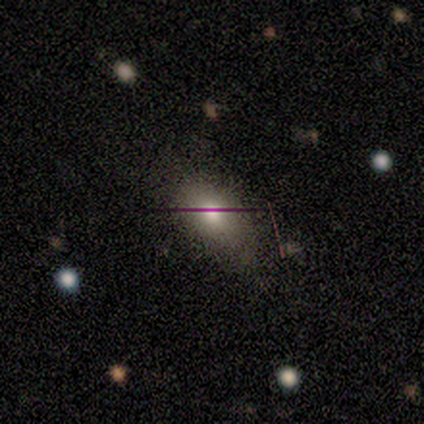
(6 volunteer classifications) Smooth or featured? smooth (67%)
How rounded? in between (75%)
Merging? minor disturbance (60%)